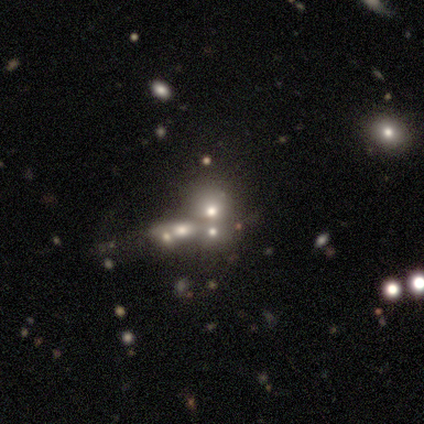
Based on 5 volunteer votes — smooth_or_featured: smooth (p=0.40) [tied with: star or artifact p=0.40]
how_rounded: round (p=0.50) [tied with: in between p=0.50]
merging: merger (p=0.67) [alt: none p=0.33]